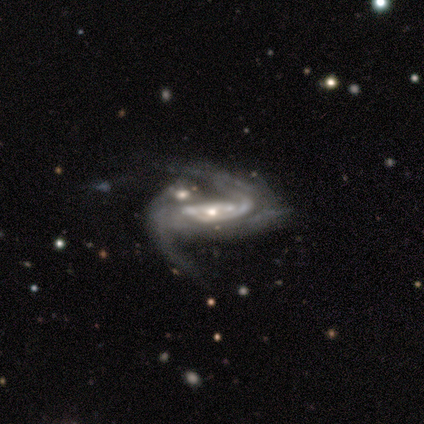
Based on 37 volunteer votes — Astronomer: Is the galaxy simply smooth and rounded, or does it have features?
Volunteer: featured or disk — 89%.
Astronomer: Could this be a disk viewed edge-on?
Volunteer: no — 94%.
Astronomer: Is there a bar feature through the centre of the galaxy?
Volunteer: no — 42% (runner-up: strong, 29%).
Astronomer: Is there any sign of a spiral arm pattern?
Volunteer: yes — 94%.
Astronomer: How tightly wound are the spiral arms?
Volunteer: loose — 45% (runner-up: medium, 38%).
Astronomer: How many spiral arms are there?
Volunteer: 2 — 62%.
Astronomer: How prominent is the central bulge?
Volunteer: moderate — 52% (runner-up: small, 42%).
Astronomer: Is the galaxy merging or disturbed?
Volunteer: major disturbance — 46% (runner-up: merger, 29%).